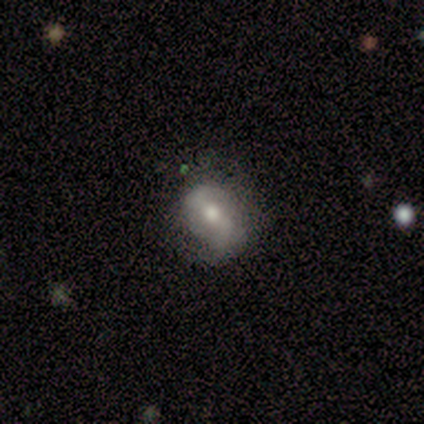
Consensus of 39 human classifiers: A featured or disk galaxy (69%) with a weak bar (59%), 2 (88%) loose (54%) spiral arms (89%) and a moderate central bulge (70%). Merging: none (69%).